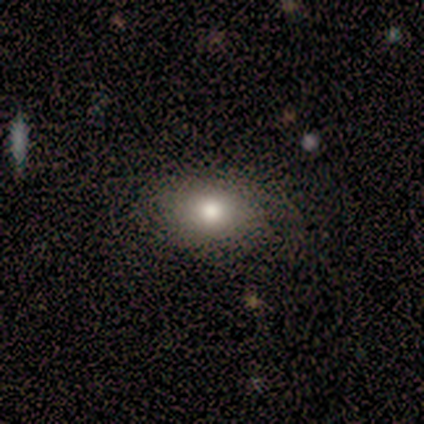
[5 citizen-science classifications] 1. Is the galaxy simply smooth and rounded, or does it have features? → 80% smooth, 20% star or artifact, 0% featured or disk.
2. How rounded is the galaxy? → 100% in between, 0% round, 0% cigar-shaped.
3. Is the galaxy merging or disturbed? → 75% none, 25% minor disturbance, 0% major disturbance, 0% merger.